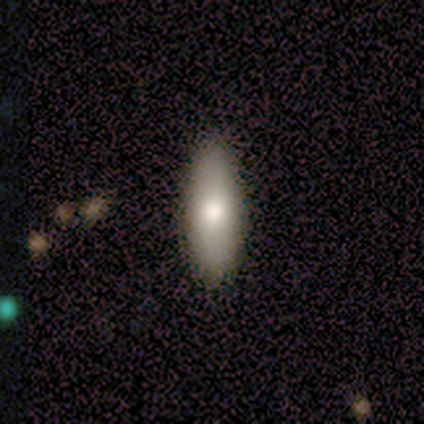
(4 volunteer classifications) Smooth or featured? 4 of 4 (100%) said smooth. How rounded? 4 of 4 (100%) said in between. Merging? 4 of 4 (100%) said none.